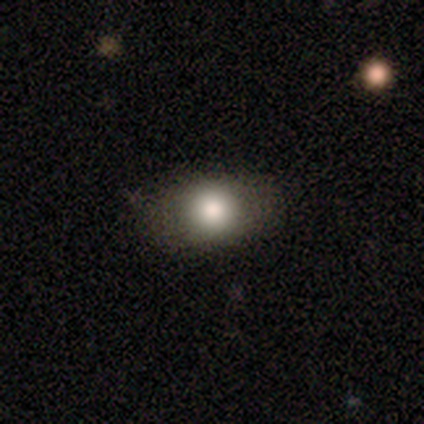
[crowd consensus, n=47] This is likely a smooth galaxy (74%). How rounded: possibly in between (54%). Merging: clearly none (80%).